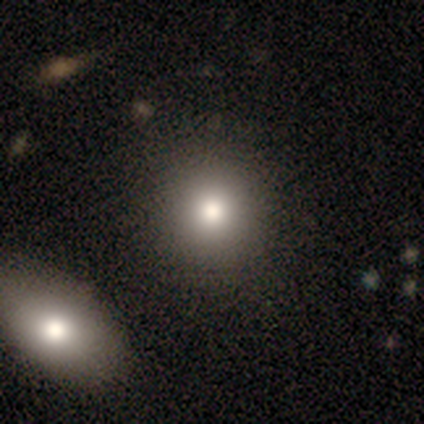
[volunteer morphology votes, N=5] type=smooth (100%); roundness=round (80%); merging=none (80%).